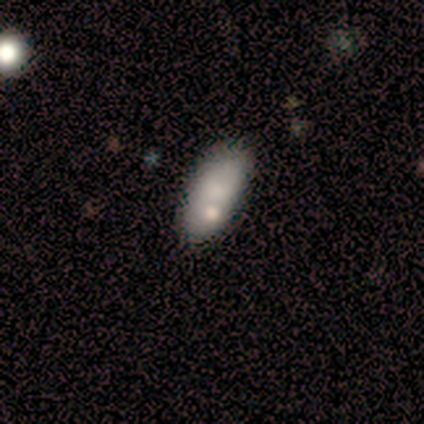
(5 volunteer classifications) Smooth or featured?
  - smooth: 80% *
  - featured or disk: 20%
  - star or artifact: 0%
How rounded?
  - in between: 100% *
  - round: 0%
  - cigar-shaped: 0%
Merging?
  - none: 80% *
  - merger: 20%
  - minor disturbance: 0%
  - major disturbance: 0%